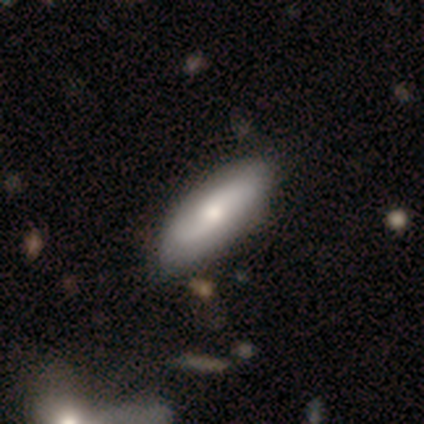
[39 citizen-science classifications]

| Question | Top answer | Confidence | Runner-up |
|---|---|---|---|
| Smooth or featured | featured or disk | 49% | smooth (46%) |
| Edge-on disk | no | 84% | yes (16%) |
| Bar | no | 62% | weak (25%) |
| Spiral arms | yes | 81% | no (19%) |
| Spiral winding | medium | 62% | tight (23%) |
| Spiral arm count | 2 | 69% | can't tell (31%) |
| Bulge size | moderate | 56% | small (31%) |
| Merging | none | 59% | minor disturbance (14%) |